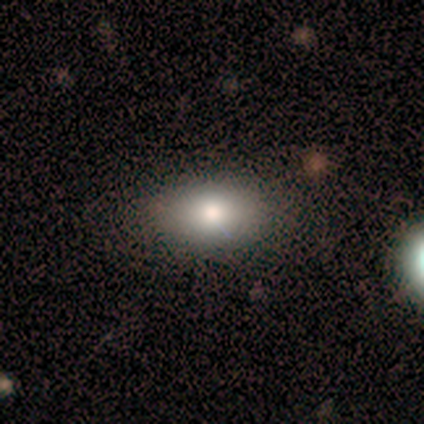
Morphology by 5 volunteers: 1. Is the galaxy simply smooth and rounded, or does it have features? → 60% smooth, 20% featured or disk, 20% star or artifact.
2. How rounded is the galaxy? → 100% in between, 0% round, 0% cigar-shaped.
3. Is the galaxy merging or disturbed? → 75% none, 25% minor disturbance, 0% major disturbance, 0% merger.